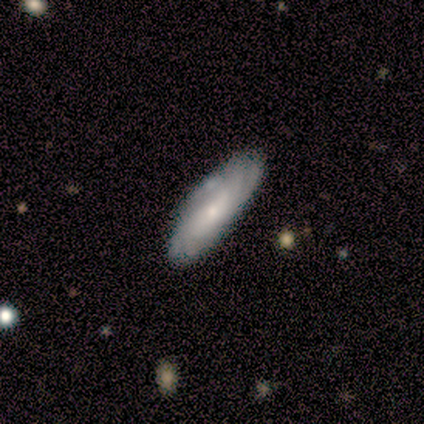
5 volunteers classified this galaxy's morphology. type=featured or disk (60%); edge-on=no (67%); bar=weak (50%, tied with no); spiral arms=yes (100%); winding=tight (100%); arm count=can't tell (100%); bulge=small (100%); merging=none (80%).